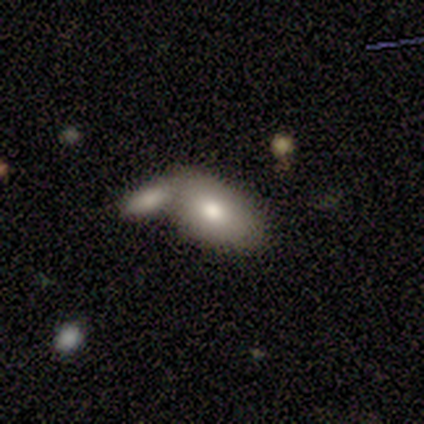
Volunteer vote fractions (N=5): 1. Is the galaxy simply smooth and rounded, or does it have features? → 80% smooth, 20% star or artifact, 0% featured or disk.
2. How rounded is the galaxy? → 100% in between, 0% round, 0% cigar-shaped.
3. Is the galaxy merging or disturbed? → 50% none (tied), 50% merger (tied), 0% minor disturbance, 0% major disturbance.